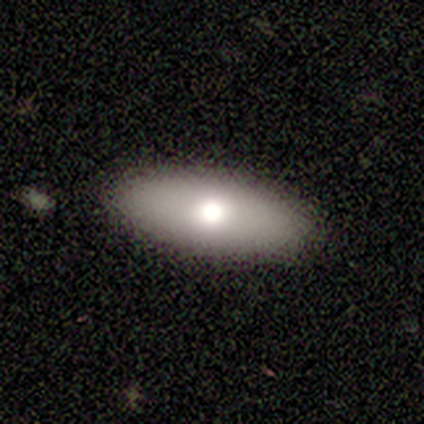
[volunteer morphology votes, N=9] smooth 78%, featured or disk 22%, star or artifact 0%. Down the decision tree: how rounded — in between (86%); merging — none (89%).